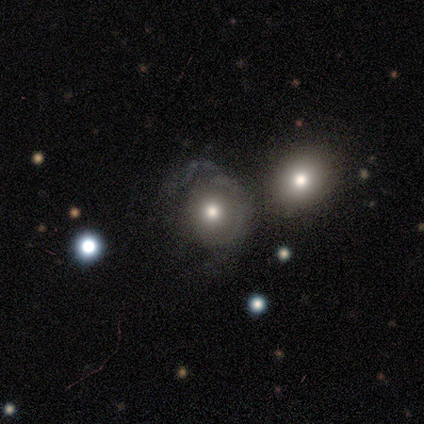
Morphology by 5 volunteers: type=featured or disk (60%); edge-on=no (100%); bar=no (67%); spiral arms=no (100%); bulge=moderate (100%); merging=none (40%).